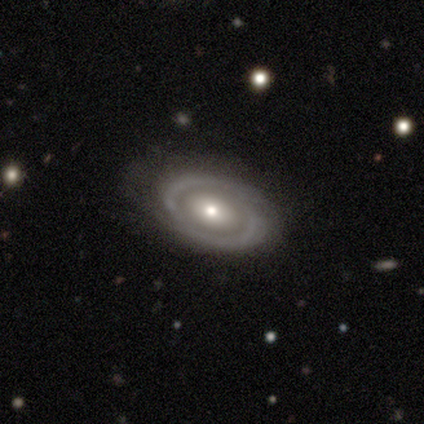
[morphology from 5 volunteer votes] A smooth galaxy with no disk features (40%, tied with featured or disk) that is round (50%, tied with in between). Merging: none (75%).